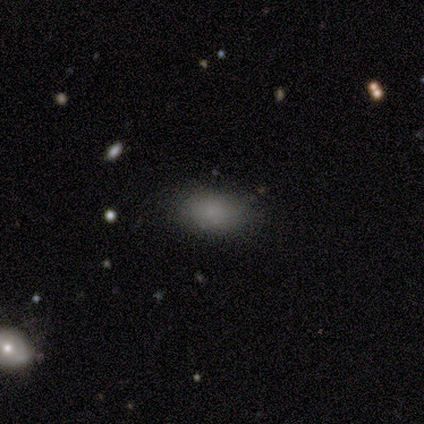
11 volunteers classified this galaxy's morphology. Volunteers were most divided on "smooth or featured": smooth: 82%, star or artifact: 18%, featured or disk: 0%. More confident: merging — none (89%); how rounded — in between (78%).